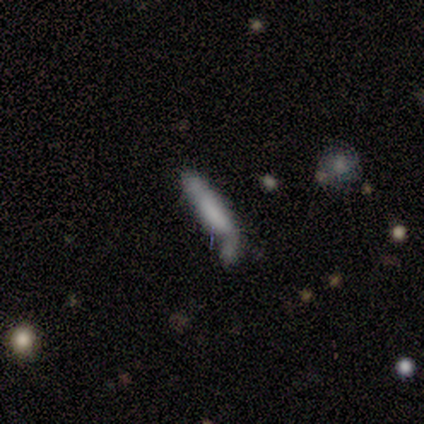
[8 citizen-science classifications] smooth-or-featured: smooth: 62% | featured or disk: 38% | star or artifact: 0%
  how-rounded: cigar-shaped: 100% | round: 0% | in between: 0%
  merging: merger: 50% | none: 25% | major disturbance: 25% | minor disturbance: 0%